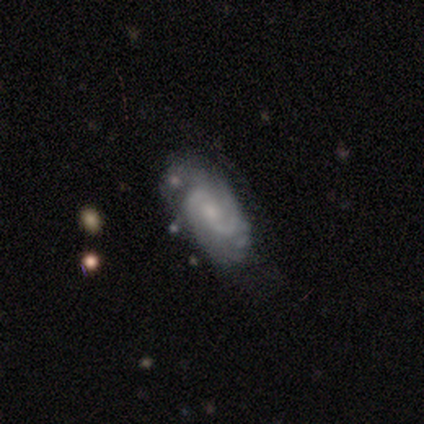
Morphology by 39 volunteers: Q: Smooth or featured?
A: featured or disk (90%); runner-up: smooth (10%)
Q: Edge-on disk?
A: no (100%)
Q: Bar?
A: no (49%); runner-up: weak (40%)
Q: Spiral arms?
A: yes (100%)
Q: Spiral winding?
A: medium (49%); runner-up: tight (40%)
Q: Spiral arm count?
A: 2 (60%); runner-up: 3 (20%)
Q: Bulge size?
A: small (54%); runner-up: moderate (34%)
Q: Merging?
A: none (69%); runner-up: minor disturbance (13%)